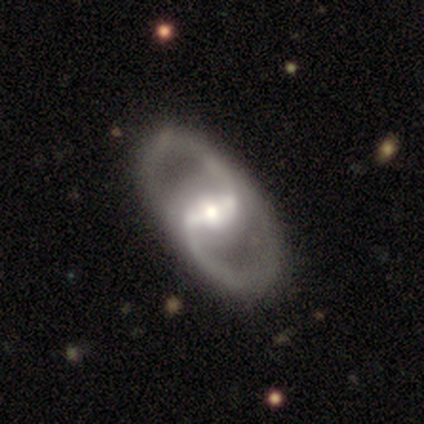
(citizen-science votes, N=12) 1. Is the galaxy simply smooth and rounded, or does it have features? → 100% featured or disk, 0% smooth, 0% star or artifact.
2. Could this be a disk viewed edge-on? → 100% no, 0% yes.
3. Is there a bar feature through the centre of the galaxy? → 58% strong, 42% weak, 0% no.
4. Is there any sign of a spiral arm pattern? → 92% yes, 8% no.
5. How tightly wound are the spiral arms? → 73% medium, 18% loose, 9% tight.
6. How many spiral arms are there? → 82% 2, 9% 1, 9% can't tell, 0% 3, 0% 4, 0% more than 4.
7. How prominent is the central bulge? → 58% moderate, 33% small, 8% none, 0% dominant, 0% large.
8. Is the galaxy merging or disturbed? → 67% none, 25% minor disturbance, 8% major disturbance, 0% merger.